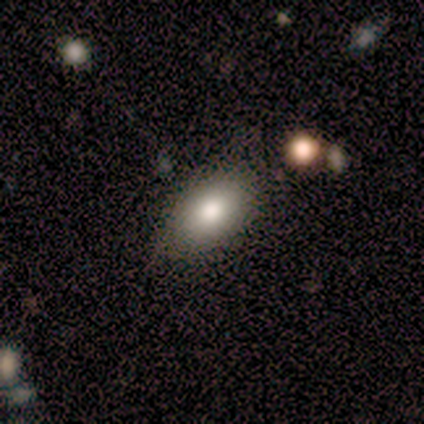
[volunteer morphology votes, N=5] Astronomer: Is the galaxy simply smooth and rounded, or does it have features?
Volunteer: smooth — 60% (runner-up: star or artifact, 40%).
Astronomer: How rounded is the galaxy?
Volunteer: in between — 67%.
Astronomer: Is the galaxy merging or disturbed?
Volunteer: none — 67%.